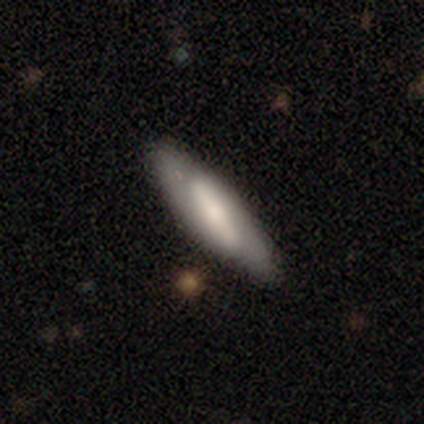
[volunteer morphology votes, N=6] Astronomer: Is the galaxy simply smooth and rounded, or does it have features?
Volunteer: smooth — 50%, tied with featured or disk at 50%.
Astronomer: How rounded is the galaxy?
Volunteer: cigar-shaped — 100%.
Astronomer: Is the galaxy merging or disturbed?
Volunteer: none — 100%.